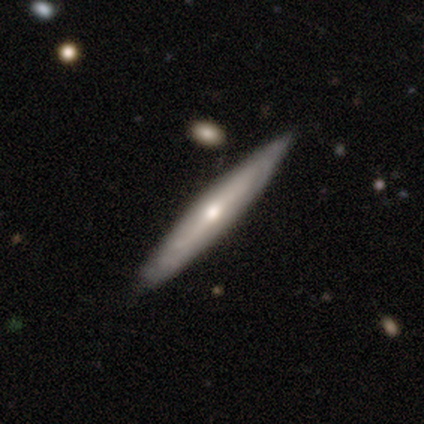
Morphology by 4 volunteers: Volunteers were most divided on "edge-on bulge": rounded: 50%, boxy: 25%, none: 25%. More confident: smooth or featured — featured or disk (100%); edge-on disk — yes (100%); merging — none (75%).